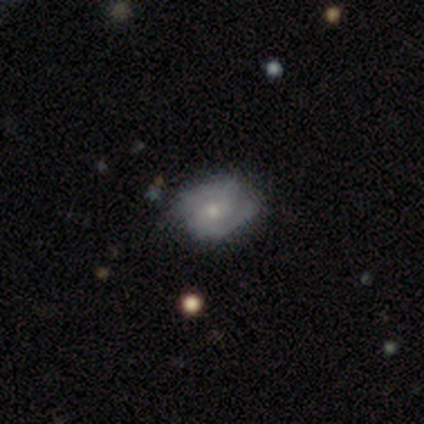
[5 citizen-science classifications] Smooth or featured: featured or disk — 80% (smooth — 20%)
Edge-on disk: no — 100%
Bar: no — 100%
Spiral arms: yes — 100%
Spiral winding: tight — 50% (medium — 25%)
Spiral arm count: 2 — 75% (can't tell — 25%)
Bulge size: moderate — 50% (tied with small — 50%)
Merging: none — 80% (merger — 20%)